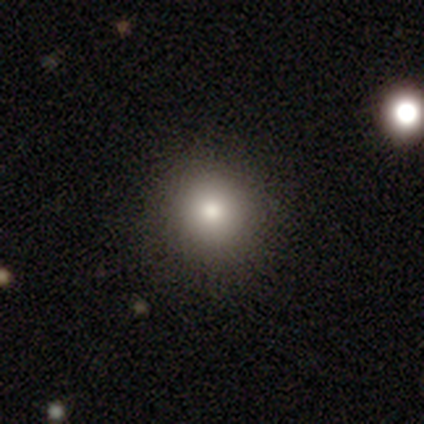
Q: Smooth or featured?
A: smooth (92%); runner-up: featured or disk (5%)
Q: How rounded?
A: round (97%); runner-up: in between (3%)
Q: Merging?
A: none (97%); runner-up: minor disturbance (3%)